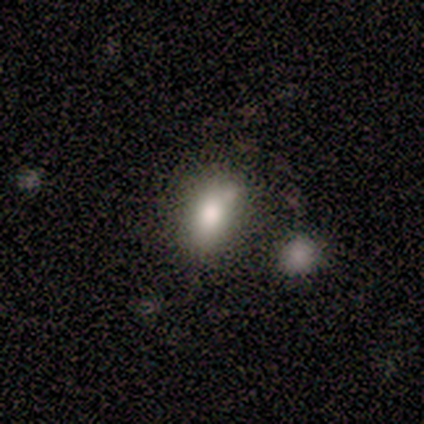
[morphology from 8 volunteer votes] A smooth galaxy with no disk features (50%) that is in between round and cigar-shaped (100%). Merging: none (43%).